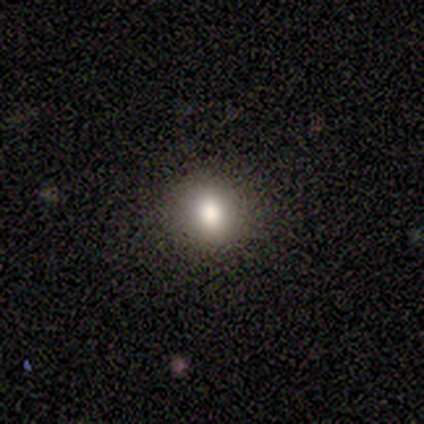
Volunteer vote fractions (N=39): This is likely a smooth galaxy (67%). How rounded: likely round (73%). Merging: clearly none (87%).